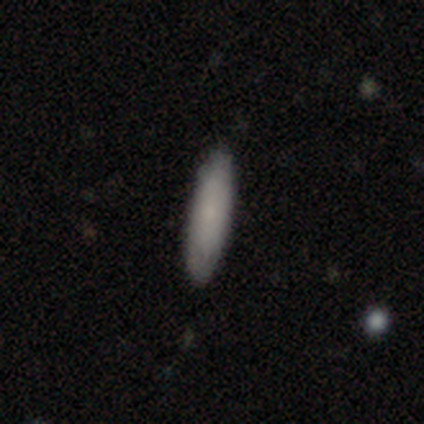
Overall: smooth (80%). How rounded: in between (50%, tied with cigar-shaped). Merging: none (100%).